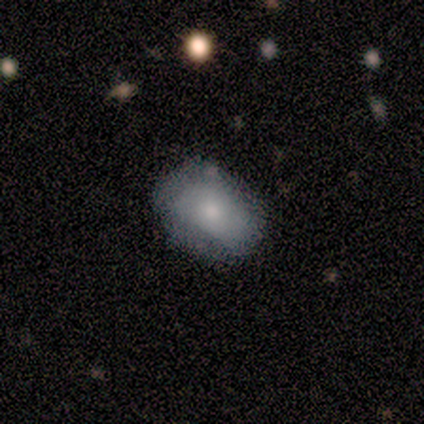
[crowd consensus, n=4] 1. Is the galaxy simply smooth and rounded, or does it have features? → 75% smooth, 25% star or artifact, 0% featured or disk.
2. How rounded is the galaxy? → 100% in between, 0% round, 0% cigar-shaped.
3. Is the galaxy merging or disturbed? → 67% none, 33% minor disturbance, 0% major disturbance, 0% merger.